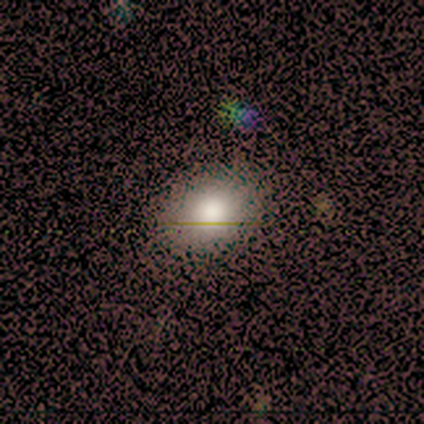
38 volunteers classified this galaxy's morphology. type=smooth (74%); roundness=round (54%); merging=none (73%).